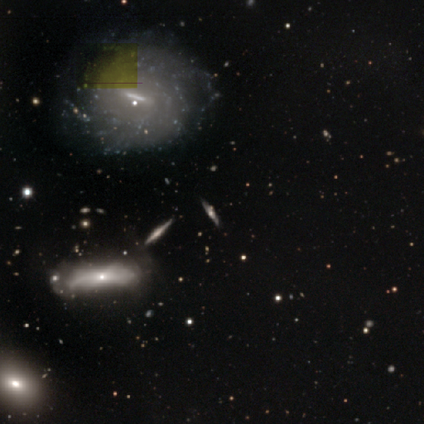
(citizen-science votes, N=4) Smooth or featured? 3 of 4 (75%) said featured or disk. Edge-on disk? 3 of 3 (100%) said no. Bar? 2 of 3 (67%) said no. Spiral arms? 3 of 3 (100%) said yes. Spiral winding? 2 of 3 (67%) said loose. Spiral arm count? 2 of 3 (67%) said can't tell. Bulge size? 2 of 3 (67%) said moderate. Merging? 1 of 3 (33%, tied with minor disturbance and major disturbance) said none.